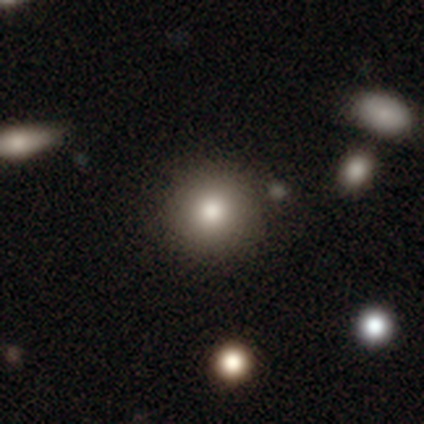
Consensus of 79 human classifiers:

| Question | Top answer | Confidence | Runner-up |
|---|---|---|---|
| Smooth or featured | smooth | 82% | featured or disk (10%) |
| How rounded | round | 89% | in between (11%) |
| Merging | none | 52% | merger (5%) |